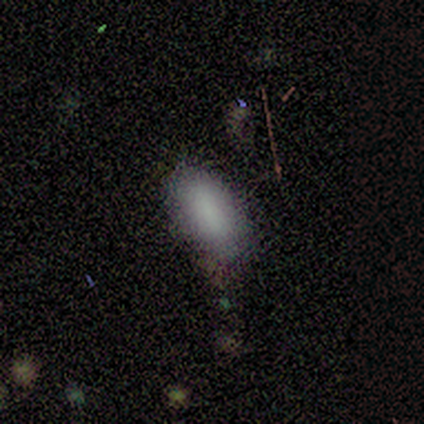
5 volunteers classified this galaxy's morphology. Q: Smooth or featured?
A: smooth (100%)
Q: How rounded?
A: in between (100%)
Q: Merging?
A: none (80%); runner-up: minor disturbance (20%)